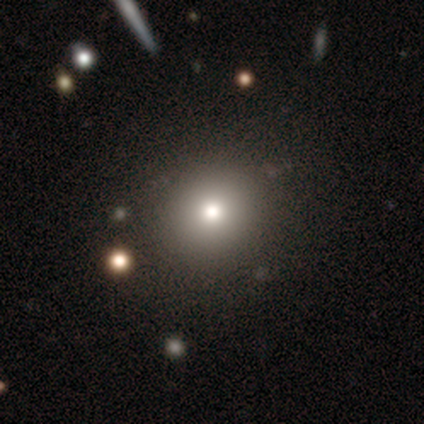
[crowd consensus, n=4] Smooth or featured? 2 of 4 (50%, tied with star or artifact) said smooth. How rounded? 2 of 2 (100%) said round. Merging? 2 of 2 (100%) said none.